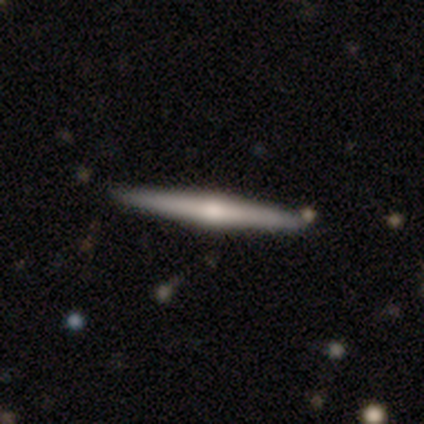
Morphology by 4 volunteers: A featured or disk galaxy (75%) viewed edge-on (100%) with a rounded central bulge (100%). Merging: none (100%).